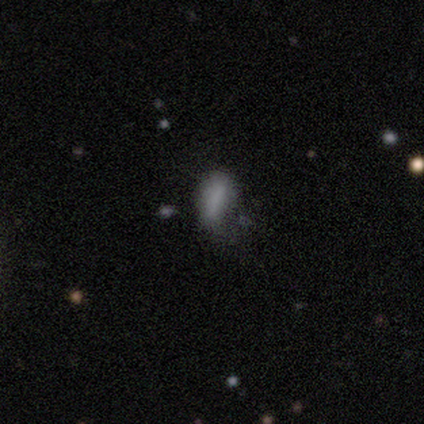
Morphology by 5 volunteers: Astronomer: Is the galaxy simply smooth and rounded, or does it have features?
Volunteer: smooth — 100%.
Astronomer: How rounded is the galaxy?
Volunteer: in between — 100%.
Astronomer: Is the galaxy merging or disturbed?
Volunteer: none — 60%.